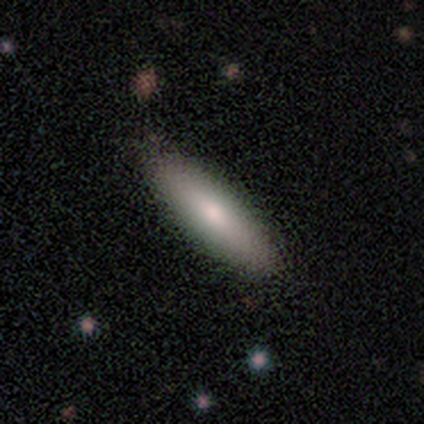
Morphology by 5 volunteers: smooth 100%, featured or disk 0%, star or artifact 0%. Down the decision tree: how rounded — cigar-shaped (100%); merging — none (60%).